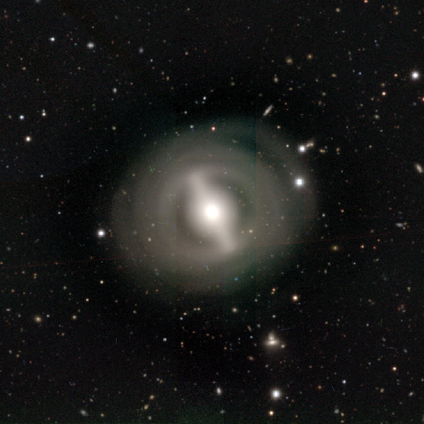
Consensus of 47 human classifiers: A featured or disk galaxy (91%) with a strong bar (88%), tight (71%) spiral arms (52%) and a moderate central bulge (73%). Merging: none (71%).